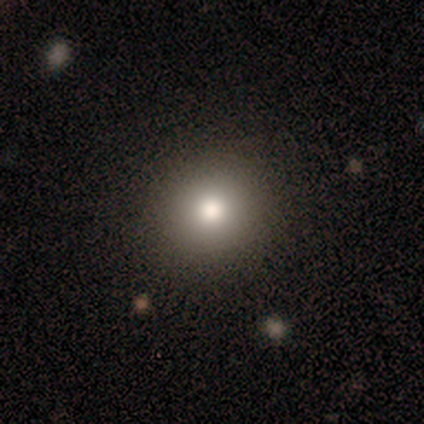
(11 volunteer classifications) smooth-or-featured: smooth: 100% | featured or disk: 0% | star or artifact: 0%
  how-rounded: round: 91% | in between: 9% | cigar-shaped: 0%
  merging: none: 82% | minor disturbance: 9% | major disturbance: 9% | merger: 0%